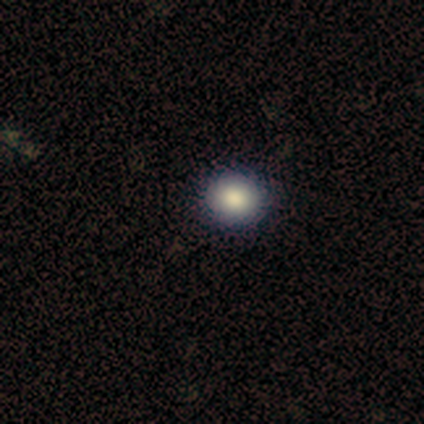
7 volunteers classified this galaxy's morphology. Overall: smooth (86%). How rounded: round (100%). Merging: none (86%).